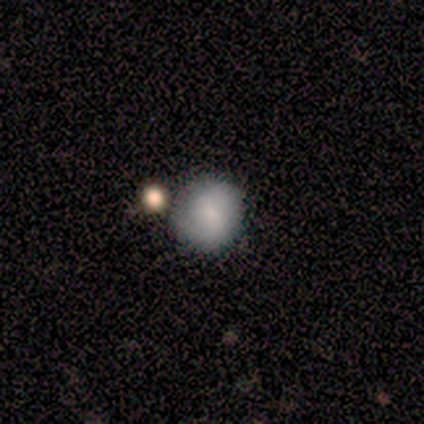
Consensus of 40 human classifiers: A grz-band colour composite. It shows a smooth galaxy with no disk features (62%) that is round (96%). Merging: none (72%).